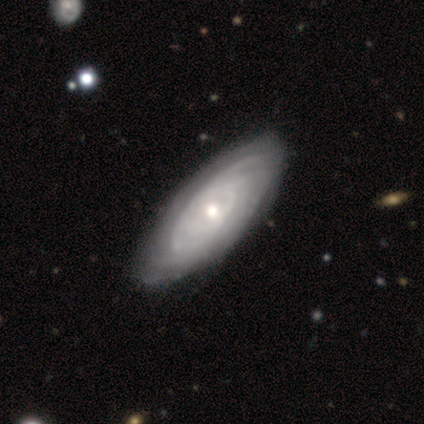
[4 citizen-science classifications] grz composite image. It shows a featured or disk galaxy (75%) with a weak bar (100%), 2 (50%, tied with more than 4) tight (50%, tied with medium) spiral arms (100%) and a moderate central bulge (100%). Merging: none (75%).